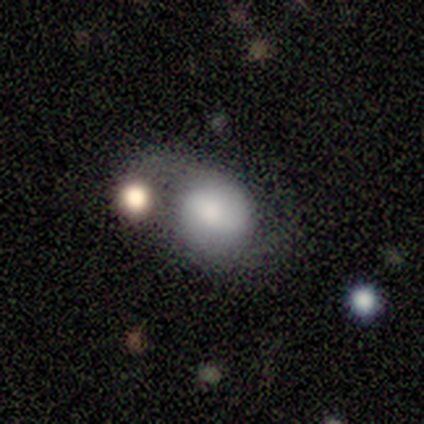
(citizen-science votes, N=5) smooth_or_featured: smooth (p=0.40) [tied with: star or artifact p=0.40]
how_rounded: round (p=0.50) [tied with: in between p=0.50]
merging: none (p=0.33) [tied with: major disturbance p=0.33, merger p=0.33]